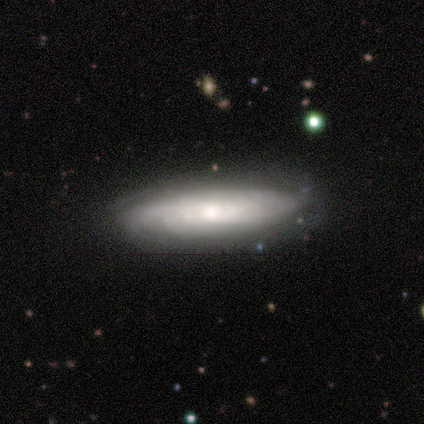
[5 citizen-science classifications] A featured or disk galaxy (80%) with no bar (67%), more than 4 (50%, tied with can't tell) tight (100%) spiral arms (67%) and a small central bulge (67%).

Vote fractions:
- Smooth or featured? featured or disk: 80% / smooth: 20% / star or artifact: 0%
- Edge-on disk? no: 75% / yes: 25%
- Bar? no: 67% / weak: 33% / strong: 0%
- Spiral arms? yes: 67% / no: 33%
- Spiral winding? tight: 100% / medium: 0% / loose: 0%
- Spiral arm count? more than 4: 50% (tied) / can't tell: 50% (tied) / 1: 0% / 2: 0% / 3: 0% / 4: 0%
- Bulge size? small: 67% / moderate: 33% / dominant: 0% / large: 0% / none: 0%
- Merging? none: 80% / minor disturbance: 20% / major disturbance: 0% / merger: 0%